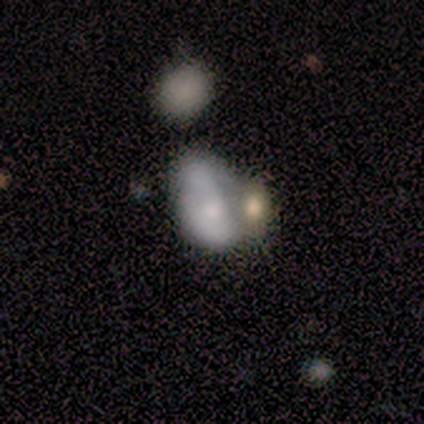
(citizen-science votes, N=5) A smooth galaxy with no disk features (80%) that is in between round and cigar-shaped (100%). Merging: major disturbance (50%, tied with merger).